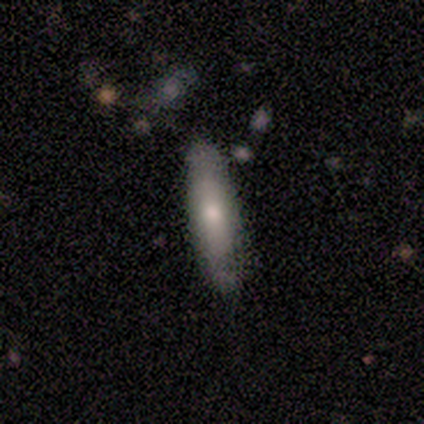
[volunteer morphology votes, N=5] Smooth or featured? 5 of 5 (100%) said smooth. How rounded? 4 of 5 (80%) said cigar-shaped. Merging? 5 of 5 (100%) said none.